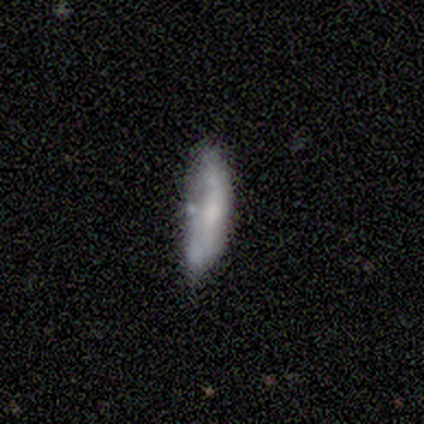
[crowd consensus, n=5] Smooth or featured? 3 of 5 (60%) said smooth. How rounded? 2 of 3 (67%) said in between. Merging? 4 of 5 (80%) said minor disturbance.